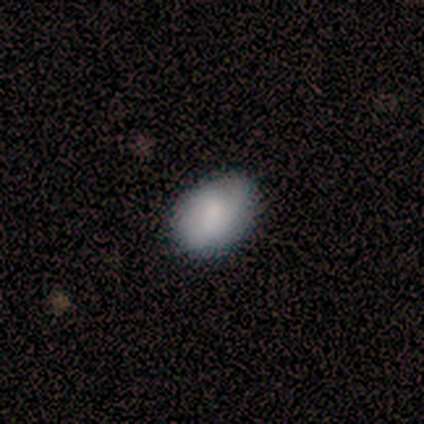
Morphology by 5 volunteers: smooth_or_featured: smooth (p=1.00)
how_rounded: in between (p=1.00)
merging: none (p=0.80) [alt: minor disturbance p=0.20]